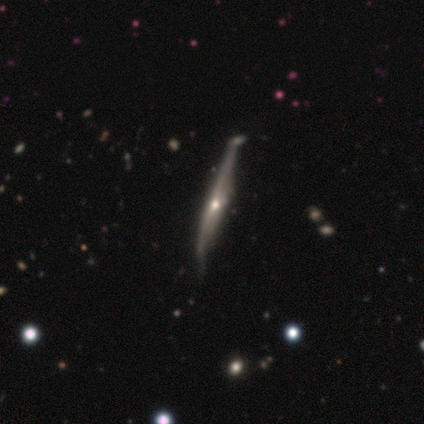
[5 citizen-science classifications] smooth_or_featured: featured or disk (p=0.60) [alt: smooth p=0.20]
disk_edge_on: yes (p=1.00)
edge_on_bulge: rounded (p=0.67) [alt: none p=0.33]
merging: none (p=0.75) [alt: merger p=0.25]